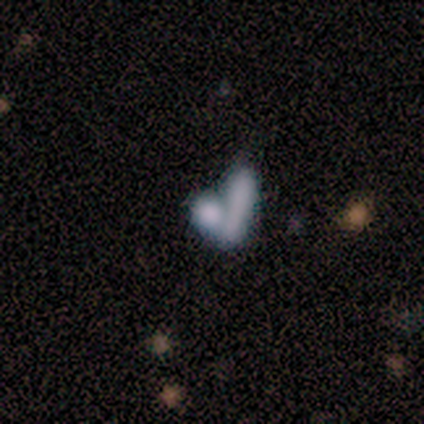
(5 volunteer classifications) smooth 80%, featured or disk 20%, star or artifact 0%. Down the decision tree: how rounded — in between (50%); merging — none (60%).